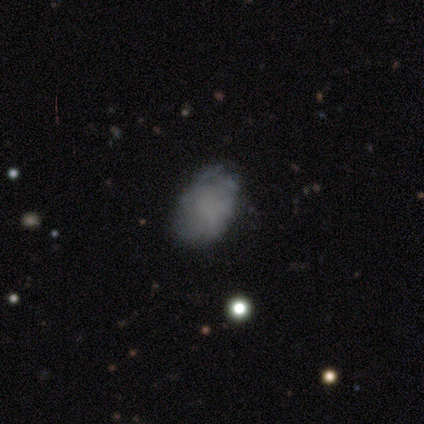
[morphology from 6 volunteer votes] Smooth or featured?
  - smooth: 67% *
  - featured or disk: 33%
  - star or artifact: 0%
How rounded?
  - in between: 75% *
  - round: 25%
  - cigar-shaped: 0%
Merging?
  - none: 67% *
  - minor disturbance: 33%
  - major disturbance: 0%
  - merger: 0%